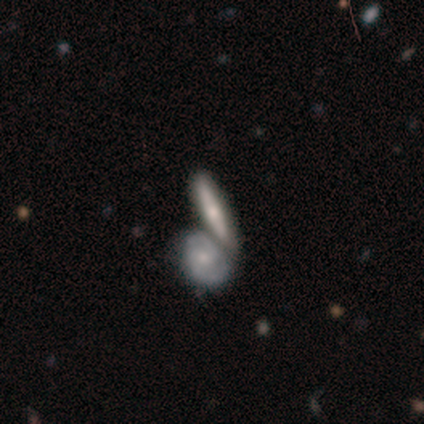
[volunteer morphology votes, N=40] This appears to be a featured or disk galaxy (70%) with no bar (81%), tight (46%) spiral arms (81%) and a small central bulge (56%). Merging: merger (49%).